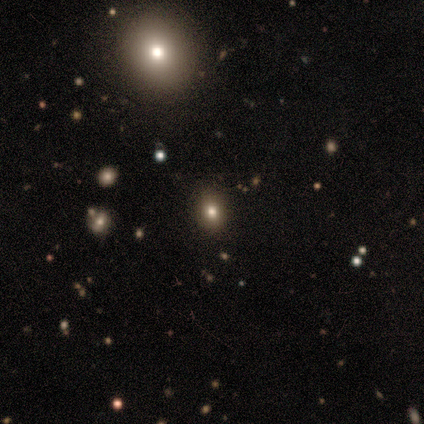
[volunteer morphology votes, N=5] smooth_or_featured: smooth (p=0.60) [alt: featured or disk p=0.40]
how_rounded: round (p=0.67) [alt: in between p=0.33]
merging: none (p=1.00)